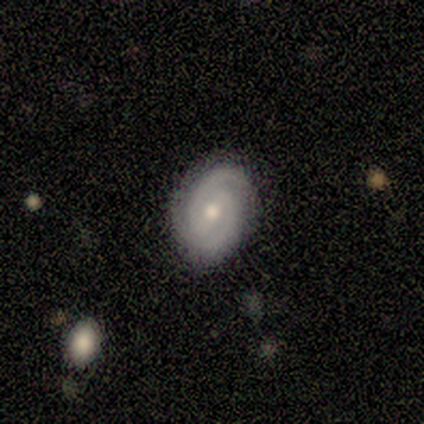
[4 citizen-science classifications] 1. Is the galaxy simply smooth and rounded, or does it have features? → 50% smooth (tied), 50% featured or disk (tied), 0% star or artifact.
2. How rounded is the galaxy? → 100% in between, 0% round, 0% cigar-shaped.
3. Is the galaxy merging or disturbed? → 75% minor disturbance, 25% none, 0% major disturbance, 0% merger.